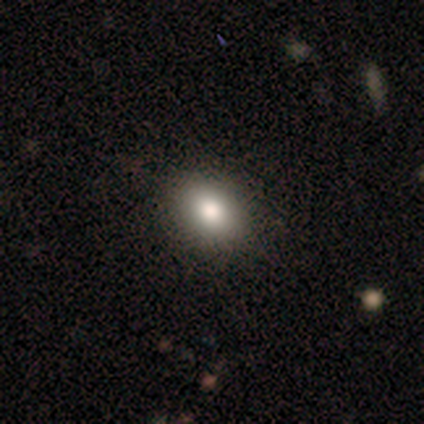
smooth-or-featured: smooth: 87% | featured or disk: 8% | star or artifact: 5%
  how-rounded: in between: 70% | round: 30% | cigar-shaped: 0%
  merging: none: 60% | minor disturbance: 3% | merger: 1% | major disturbance: 0%